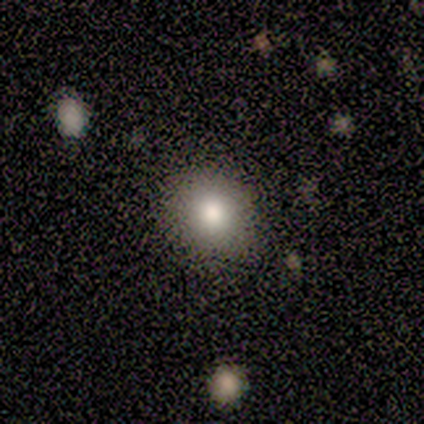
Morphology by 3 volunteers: Overall: smooth (100%). How rounded: round (67%; in between 33%). Merging: none (100%).